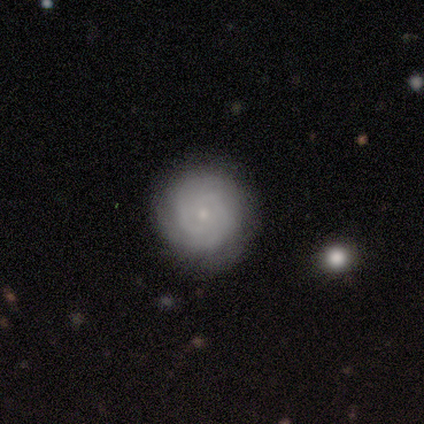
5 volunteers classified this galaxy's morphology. Q: Smooth or featured?
A: smooth (80%); runner-up: featured or disk (20%)
Q: How rounded?
A: round (100%)
Q: Merging?
A: none (80%); runner-up: minor disturbance (20%)